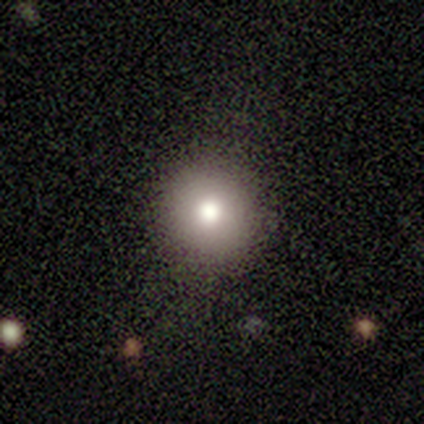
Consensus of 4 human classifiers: Smooth or featured? smooth (75%)
How rounded? round (100%)
Merging? none (100%)